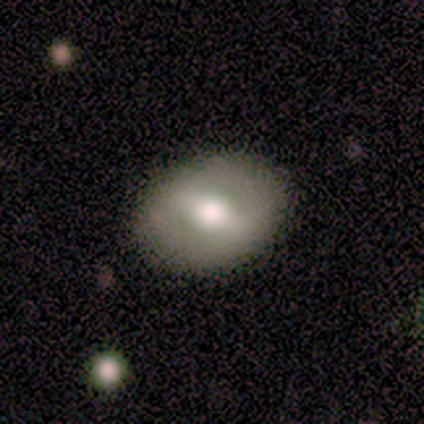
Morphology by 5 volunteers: Smooth or featured?
  - featured or disk: 100% *
  - smooth: 0%
  - star or artifact: 0%
Edge-on disk?
  - no: 100% *
  - yes: 0%
Bar?
  - strong: 40% * (tied)
  - no: 40% * (tied)
  - weak: 20%
Spiral arms?
  - no: 80% *
  - yes: 20%
Bulge size?
  - large: 60% *
  - moderate: 40%
  - dominant: 0%
  - small: 0%
  - none: 0%
Merging?
  - none: 80% *
  - minor disturbance: 20%
  - major disturbance: 0%
  - merger: 0%